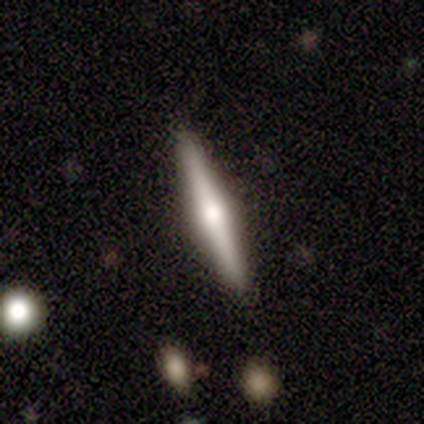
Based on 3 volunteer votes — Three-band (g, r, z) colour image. It shows a featured or disk galaxy (67%) viewed edge-on (100%) with a rounded central bulge (100%). Merging: none (100%).